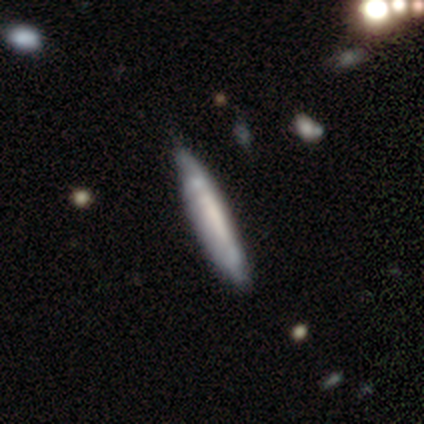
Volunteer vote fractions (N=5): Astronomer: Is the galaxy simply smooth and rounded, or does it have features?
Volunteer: smooth — 40%, tied with featured or disk at 40%.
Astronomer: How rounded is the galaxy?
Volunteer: cigar-shaped — 100%.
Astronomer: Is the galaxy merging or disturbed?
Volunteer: none — 100%.